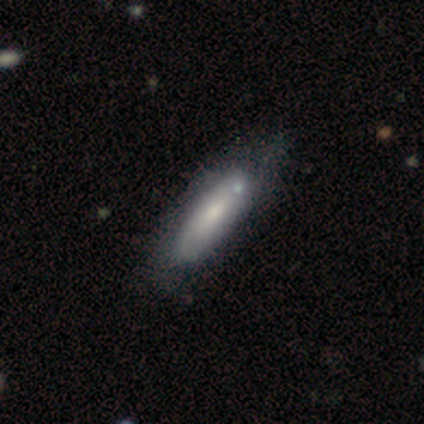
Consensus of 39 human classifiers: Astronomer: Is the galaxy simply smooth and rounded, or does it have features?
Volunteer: featured or disk — 56% (runner-up: smooth, 44%).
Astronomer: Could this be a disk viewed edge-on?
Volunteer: no — 73%.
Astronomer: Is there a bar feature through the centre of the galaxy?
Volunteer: no — 62%.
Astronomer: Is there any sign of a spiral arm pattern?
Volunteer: yes — 50%, tied with no at 50%.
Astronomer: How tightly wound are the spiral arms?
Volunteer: tight — 62%.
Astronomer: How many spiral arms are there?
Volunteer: can't tell — 75%.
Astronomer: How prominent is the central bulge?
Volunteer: moderate — 50%, tied with small at 50%.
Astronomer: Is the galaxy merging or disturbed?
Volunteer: none — 46% (runner-up: minor disturbance, 26%).